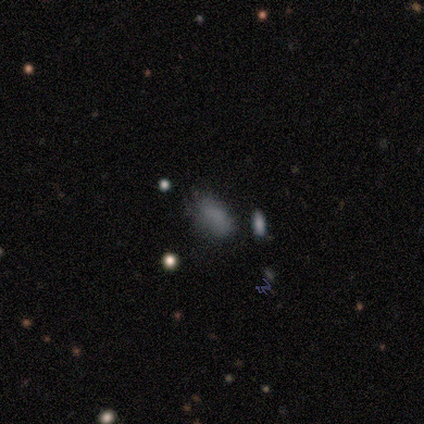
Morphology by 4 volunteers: Smooth or featured: featured or disk — 50% (smooth — 25%)
Edge-on disk: no — 100%
Bar: no — 100%
Spiral arms: no — 100%
Bulge size: moderate — 50% (tied with none — 50%)
Merging: minor disturbance — 100%